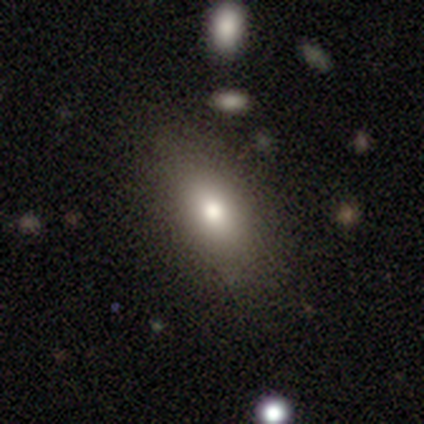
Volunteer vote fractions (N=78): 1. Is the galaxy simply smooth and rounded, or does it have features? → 72% smooth, 23% featured or disk, 5% star or artifact.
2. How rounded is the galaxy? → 84% in between, 12% round, 4% cigar-shaped.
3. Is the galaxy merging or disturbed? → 50% none, 5% minor disturbance, 4% merger, 0% major disturbance.